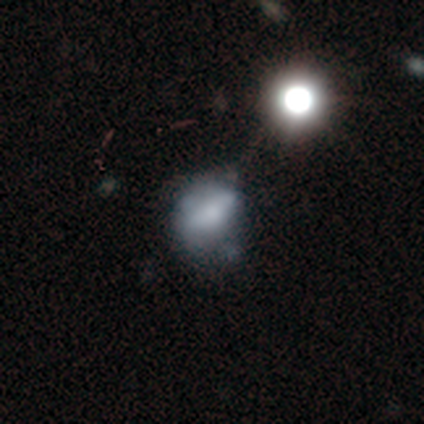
smooth_or_featured: featured or disk (p=0.50) [alt: smooth p=0.47]
disk_edge_on: no (p=0.95) [alt: yes p=0.05]
bar: no (p=0.58) [alt: strong p=0.21]
has_spiral_arms: no (p=0.89) [alt: yes p=0.11]
bulge_size: small (p=0.32) [tied with: none p=0.32]
merging: minor disturbance (p=0.38) [alt: none p=0.28]